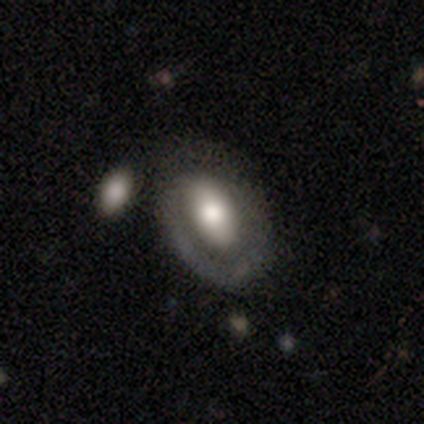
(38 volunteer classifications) Smooth or featured? 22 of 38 (58%) said featured or disk. Edge-on disk? 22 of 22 (100%) said no. Bar? 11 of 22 (50%) said no. Spiral arms? 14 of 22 (64%) said yes. Spiral winding? 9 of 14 (64%) said tight. Spiral arm count? 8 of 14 (57%) said 1. Bulge size? 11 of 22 (50%) said large. Merging? 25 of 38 (66%) said none.